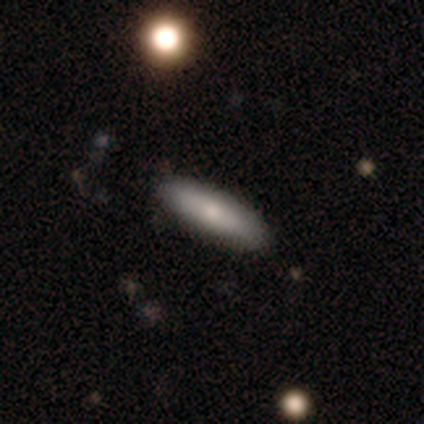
This is possibly a smooth galaxy (57%). How rounded: likely cigar-shaped (75%). Merging: clearly none (100%).